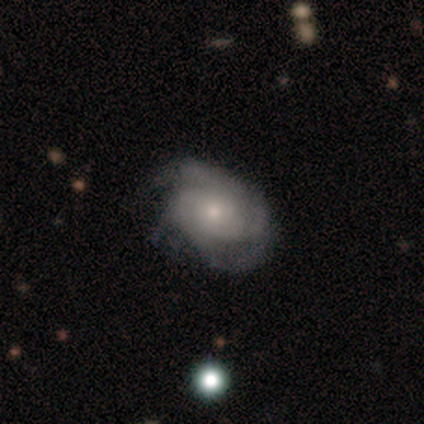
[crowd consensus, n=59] smooth_or_featured: featured or disk (p=0.81) [alt: smooth p=0.19]
disk_edge_on: no (p=0.96) [alt: yes p=0.04]
bar: no (p=0.80) [alt: weak p=0.15]
has_spiral_arms: yes (p=0.96) [alt: no p=0.04]
spiral_winding: tight (p=0.68) [alt: medium p=0.25]
spiral_arm_count: 3 (p=0.32) [alt: can't tell p=0.27]
bulge_size: moderate (p=0.46) [tied with: small p=0.46]
merging: none (p=0.58) [alt: minor disturbance p=0.34]